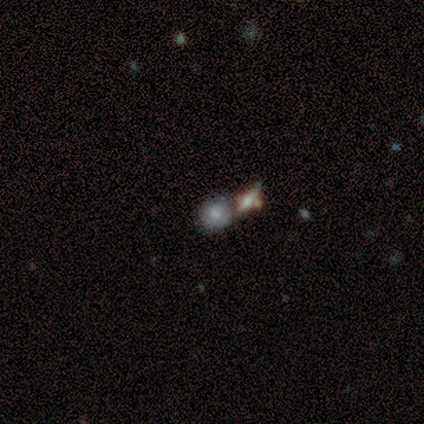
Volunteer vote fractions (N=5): Smooth or featured: smooth — 60% (featured or disk — 20%)
How rounded: round — 100%
Merging: merger — 75% (none — 25%)